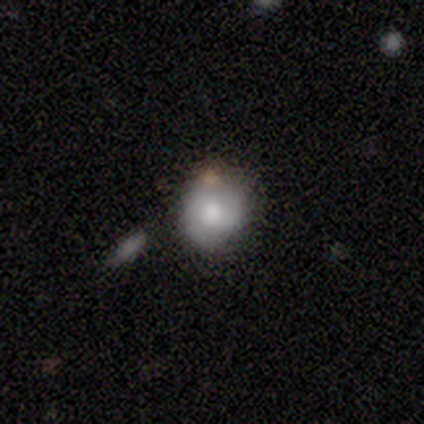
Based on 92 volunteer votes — Q: Smooth or featured?
A: smooth (68%); runner-up: featured or disk (21%)
Q: How rounded?
A: round (86%); runner-up: in between (14%)
Q: Merging?
A: none (59%); runner-up: minor disturbance (18%)